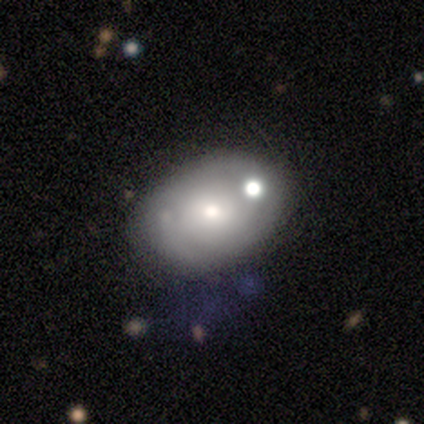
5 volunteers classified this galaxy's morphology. Smooth or featured: smooth — 60% (featured or disk — 40%)
How rounded: in between — 100%
Merging: none — 60% (merger — 40%)